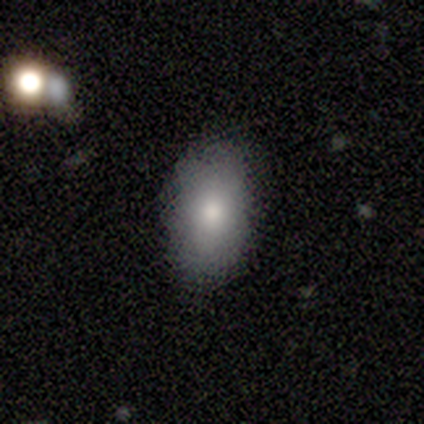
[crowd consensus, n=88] A smooth galaxy with no disk features (80%) that is in between round and cigar-shaped (93%). Merging: none (80%).